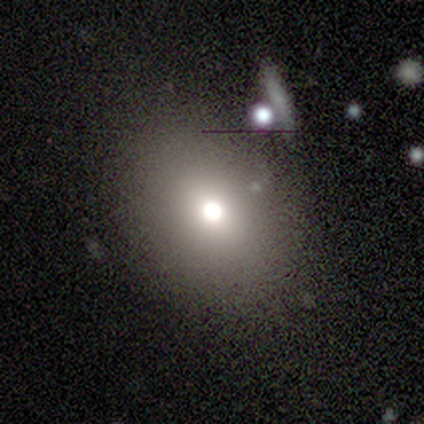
Smooth or featured?
  - smooth: 60% *
  - featured or disk: 20%
  - star or artifact: 20%
How rounded?
  - round: 67% *
  - in between: 33%
  - cigar-shaped: 0%
Merging?
  - none: 75% *
  - minor disturbance: 25%
  - major disturbance: 0%
  - merger: 0%